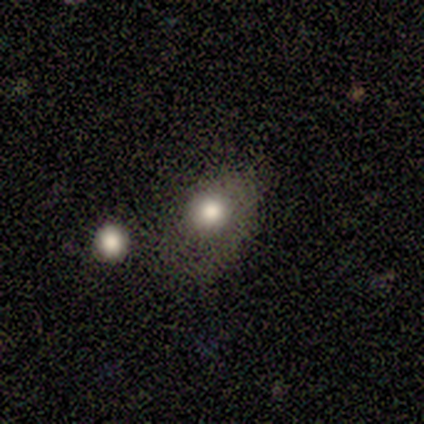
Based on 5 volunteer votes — This appears to be a smooth galaxy with no disk features (80%) that is in between round and cigar-shaped (75%). Merging: none (40%, tied with major disturbance).